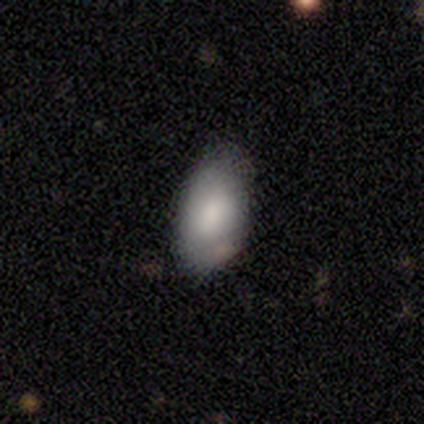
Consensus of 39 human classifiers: smooth-or-featured: smooth: 74% | featured or disk: 23% | star or artifact: 3%
  how-rounded: in between: 100% | round: 0% | cigar-shaped: 0%
  merging: none: 47% | minor disturbance: 18% | merger: 5% | major disturbance: 3%